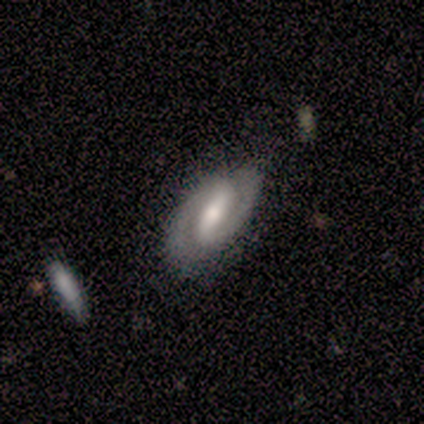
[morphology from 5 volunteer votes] Smooth or featured: featured or disk — 100%
Edge-on disk: no — 100%
Bar: weak — 60% (strong — 40%)
Spiral arms: yes — 100%
Spiral winding: medium — 80% (loose — 20%)
Spiral arm count: 2 — 100%
Bulge size: moderate — 60% (large — 20%)
Merging: none — 100%